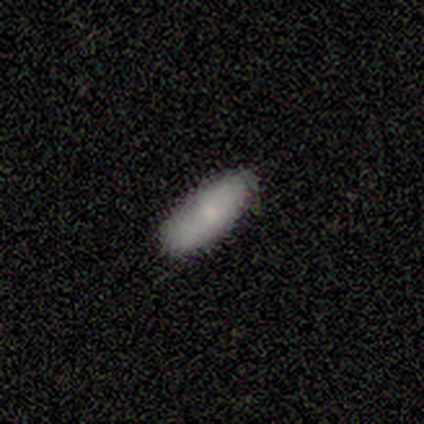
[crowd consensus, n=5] A smooth galaxy with no disk features (80%) that is in between round and cigar-shaped (100%).

Vote fractions:
- Smooth or featured? smooth: 80% / featured or disk: 20% / star or artifact: 0%
- How rounded? in between: 100% / round: 0% / cigar-shaped: 0%
- Merging? none: 100% / minor disturbance: 0% / major disturbance: 0% / merger: 0%